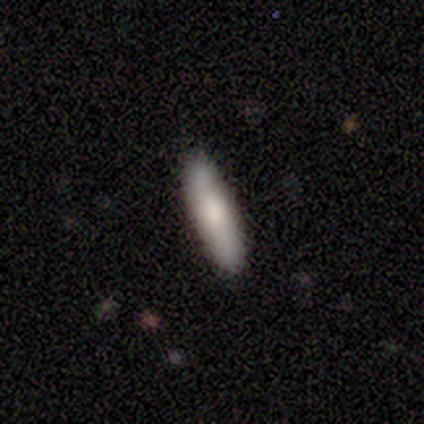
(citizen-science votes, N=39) This is likely a smooth galaxy (77%). How rounded: clearly cigar-shaped (83%). Merging: clearly none (89%).